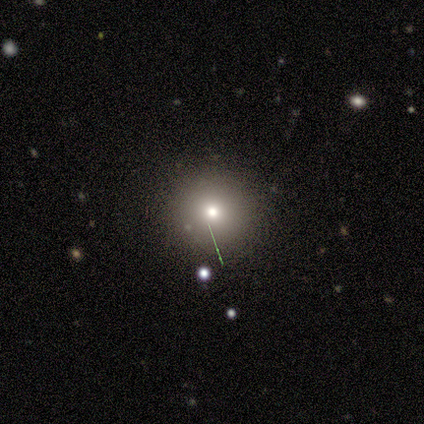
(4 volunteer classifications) This is possibly a smooth galaxy (50%, tied with featured or disk). How rounded: clearly round (100%). Merging: clearly none (100%).